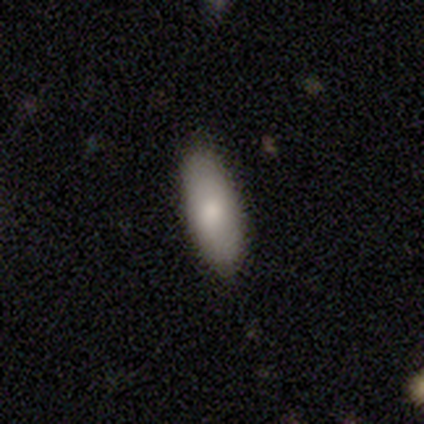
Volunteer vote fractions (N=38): Volunteers were most divided on "how rounded": in between: 67%, cigar-shaped: 33%, round: 0%. More confident: merging — none (86%); smooth or featured — smooth (79%).